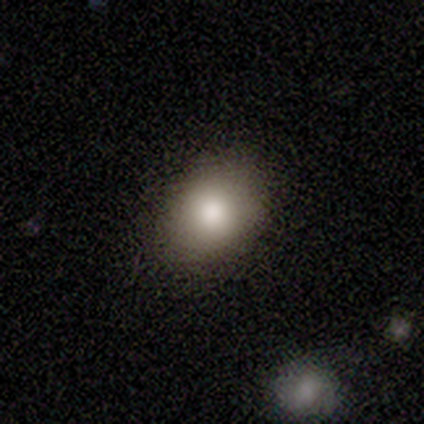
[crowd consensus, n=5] Q: Smooth or featured?
A: smooth (80%); runner-up: star or artifact (20%)
Q: How rounded?
A: in between (75%); runner-up: round (25%)
Q: Merging?
A: none (100%)